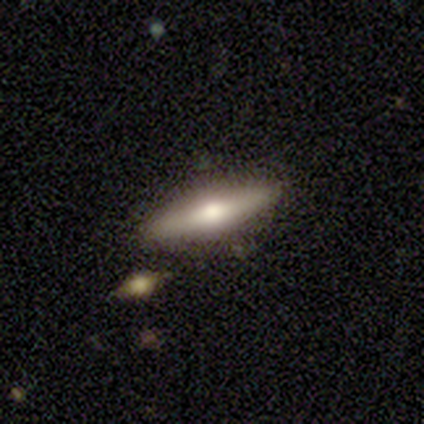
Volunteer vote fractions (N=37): Q: Smooth or featured?
A: smooth (54%); runner-up: featured or disk (38%)
Q: How rounded?
A: cigar-shaped (95%); runner-up: in between (5%)
Q: Merging?
A: none (88%); runner-up: minor disturbance (9%)